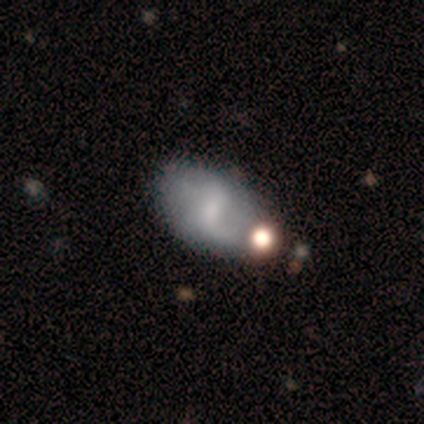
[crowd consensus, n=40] Volunteers were most divided on "bulge size": small: 48%, none: 35%, moderate: 17%, dominant: 0%, large: 0%. Remaining: edge-on disk — no (100%); spiral arm count — 2 (75%); spiral arms — yes (70%); spiral winding — loose (62%); smooth or featured — featured or disk (57%); bar — weak (48%); merging — none (39%).